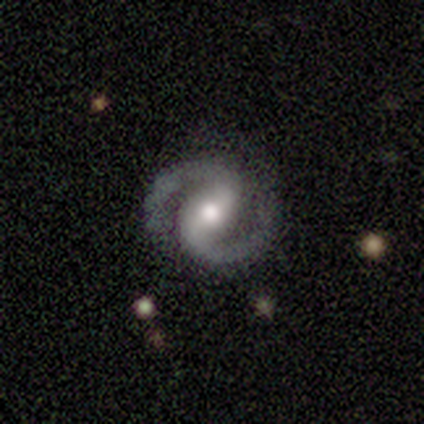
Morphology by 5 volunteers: Smooth or featured: featured or disk — 80% (star or artifact — 20%)
Edge-on disk: no — 100%
Bar: strong — 50% (tied with no — 50%)
Spiral arms: yes — 100%
Spiral winding: medium — 75% (tight — 25%)
Spiral arm count: 2 — 100%
Bulge size: moderate — 75% (large — 25%)
Merging: none — 100%